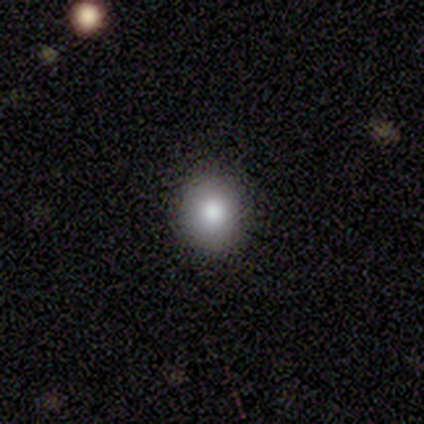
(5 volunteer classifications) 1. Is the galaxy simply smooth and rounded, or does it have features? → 100% smooth, 0% featured or disk, 0% star or artifact.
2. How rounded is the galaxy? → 80% in between, 20% cigar-shaped, 0% round.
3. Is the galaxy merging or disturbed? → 80% none, 20% minor disturbance, 0% major disturbance, 0% merger.